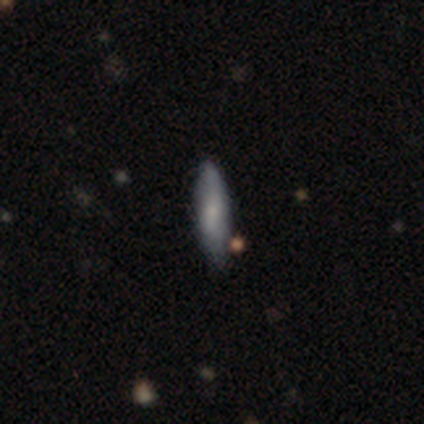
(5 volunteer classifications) Morphology: type=smooth (40%, tied with featured or disk); roundness=in between (50%, tied with cigar-shaped); merging=none (100%).